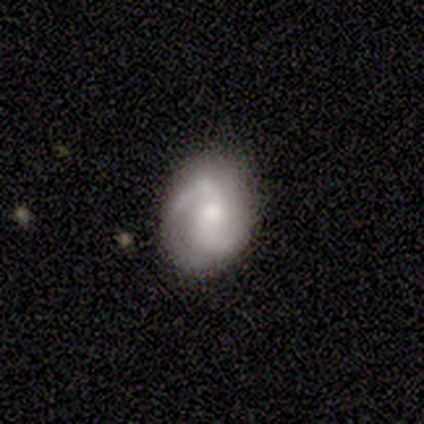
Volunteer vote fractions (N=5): Morphology: type=featured or disk (100%); edge-on=no (100%); bar=no (100%); spiral arms=yes (100%); winding=medium (40%, tied with loose); arm count=2 (100%); bulge=moderate (80%); merging=none (100%).